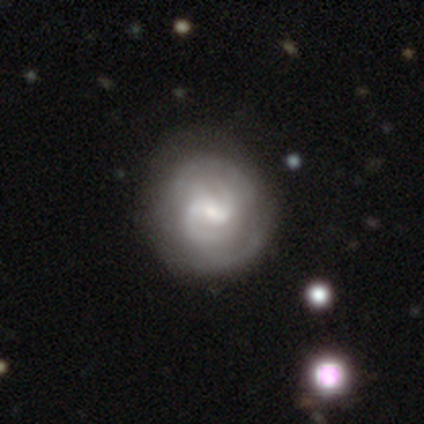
Morphology: type=featured or disk (76%); edge-on=no (100%); bar=weak (52%); spiral arms=yes (97%); winding=tight (50%); arm count=2 (50%); bulge=small (55%); merging=none (73%).